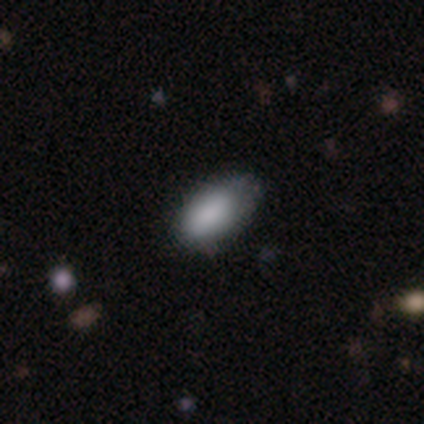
Overall: smooth (80%). How rounded: in between (75%). Merging: none (75%).